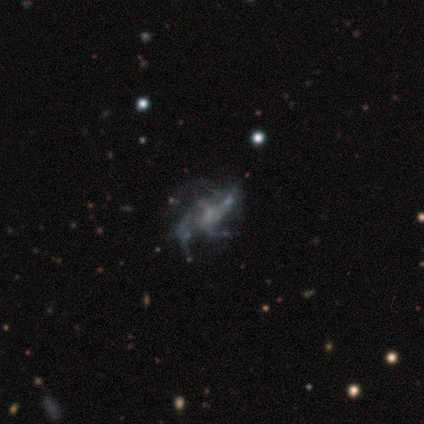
Morphology: type=featured or disk (80%); edge-on=no (97%); bar=no (62%); spiral arms=yes (84%); winding=loose (52%); arm count=3 (41%); bulge=none (53%); merging=none (49%).